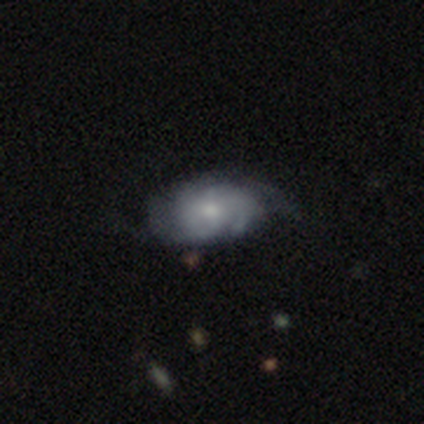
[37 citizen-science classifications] Volunteers were most divided on "spiral winding": tight: 47%, medium: 35%, loose: 18%. Remaining: edge-on disk — no (95%); spiral arms — yes (94%); bar — no (78%); bulge size — moderate (67%); merging — none (55%); smooth or featured — featured or disk (51%); spiral arm count — can't tell (41%).